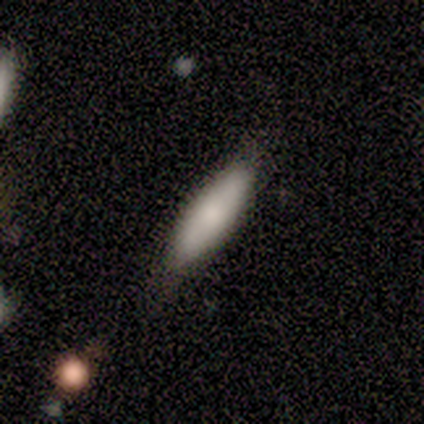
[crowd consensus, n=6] Smooth or featured?
  - smooth: 67% *
  - featured or disk: 17%
  - star or artifact: 17%
How rounded?
  - in between: 75% *
  - cigar-shaped: 25%
  - round: 0%
Merging?
  - none: 60% *
  - minor disturbance: 40%
  - major disturbance: 0%
  - merger: 0%